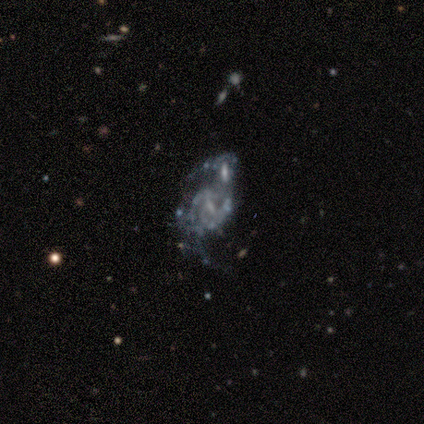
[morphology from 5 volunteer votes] A featured or disk galaxy (100%) with a strong bar (40%, tied with no), 2 (40%, tied with can't tell) loose (60%) spiral arms (100%) and no central bulge (60%).

Vote fractions:
- Smooth or featured? featured or disk: 100% / smooth: 0% / star or artifact: 0%
- Edge-on disk? no: 100% / yes: 0%
- Bar? strong: 40% (tied) / no: 40% (tied) / weak: 20%
- Spiral arms? yes: 100% / no: 0%
- Spiral winding? loose: 60% / medium: 40% / tight: 0%
- Spiral arm count? 2: 40% (tied) / can't tell: 40% (tied) / 3: 20% / 1: 0% / 4: 0% / more than 4: 0%
- Bulge size? none: 60% / small: 40% / dominant: 0% / large: 0% / moderate: 0%
- Merging? merger: 100% / none: 0% / minor disturbance: 0% / major disturbance: 0%